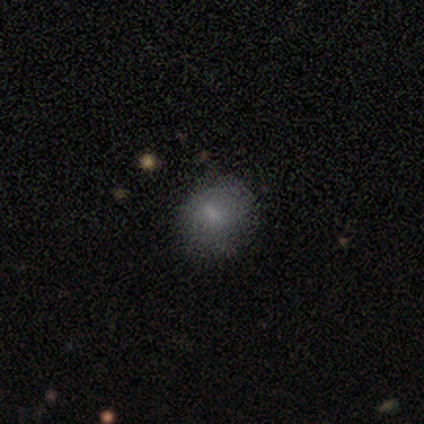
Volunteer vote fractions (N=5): Morphology: type=featured or disk (60%); edge-on=no (100%); bar=no (67%); spiral arms=no (100%); bulge=small (67%); merging=none (75%).